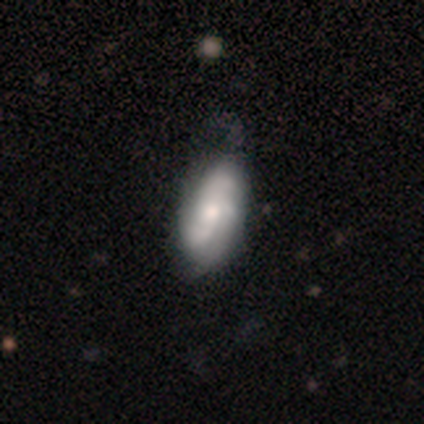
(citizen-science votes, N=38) smooth_or_featured: featured or disk (p=0.63) [alt: smooth p=0.37]
disk_edge_on: no (p=0.96) [alt: yes p=0.04]
bar: no (p=0.78) [alt: weak p=0.17]
has_spiral_arms: yes (p=0.91) [alt: no p=0.09]
spiral_winding: tight (p=0.38) [tied with: loose p=0.38]
spiral_arm_count: 3 (p=0.43) [alt: can't tell p=0.33]
bulge_size: moderate (p=0.61) [alt: small p=0.26]
merging: minor disturbance (p=0.37) [alt: none p=0.21]